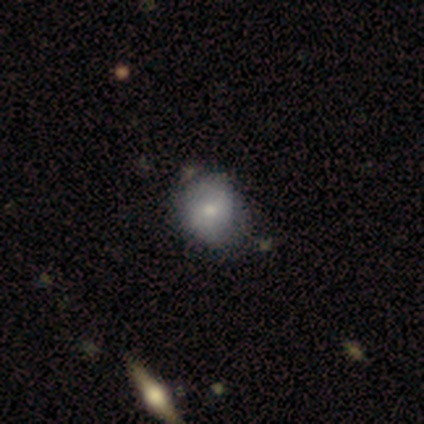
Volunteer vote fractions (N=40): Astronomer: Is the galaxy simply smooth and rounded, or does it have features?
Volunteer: smooth — 60%.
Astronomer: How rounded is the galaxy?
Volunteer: round — 75%.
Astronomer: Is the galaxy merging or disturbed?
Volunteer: none — 44%.